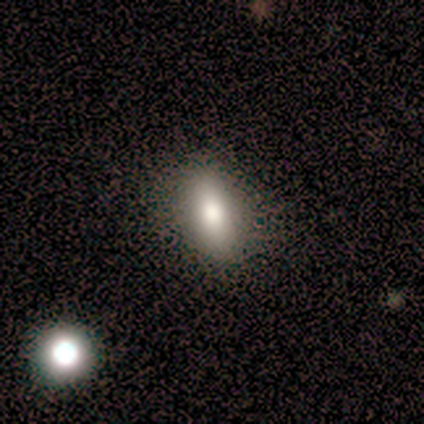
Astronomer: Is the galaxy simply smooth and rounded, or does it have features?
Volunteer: smooth — 40%, tied with featured or disk at 40%.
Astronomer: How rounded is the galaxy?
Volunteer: in between — 50%, tied with cigar-shaped at 50%.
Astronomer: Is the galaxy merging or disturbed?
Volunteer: none — 100%.